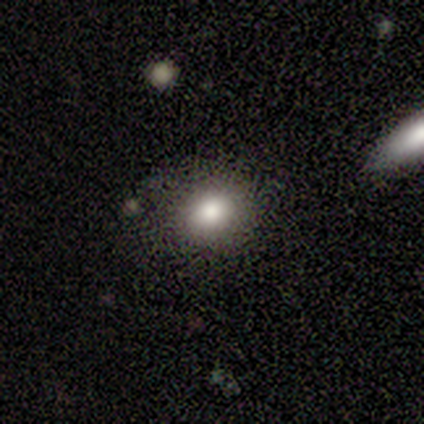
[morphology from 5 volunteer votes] Smooth or featured? 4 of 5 (80%) said smooth. How rounded? 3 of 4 (75%) said round. Merging? 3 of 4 (75%) said none.